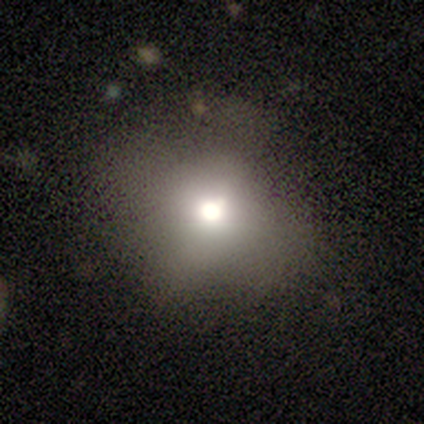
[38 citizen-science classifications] Volunteers were most divided on "merging": none: 59%, minor disturbance: 26%, major disturbance: 15%, merger: 0%. More confident: how rounded — round (80%); smooth or featured — smooth (66%).